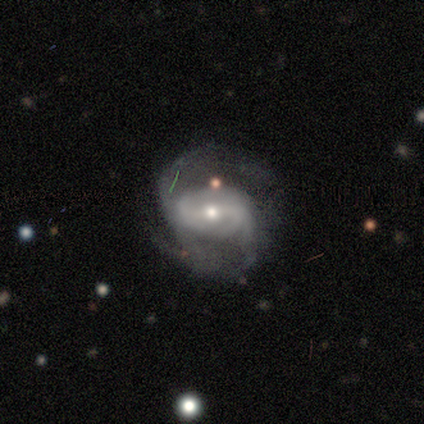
Smooth or featured? featured or disk (60%)
Edge-on disk? no (100%)
Bar? weak (67%)
Spiral arms? yes (100%)
Spiral winding? medium (67%)
Spiral arm count? 2 (67%)
Bulge size? small (100%)
Merging? none (67%)